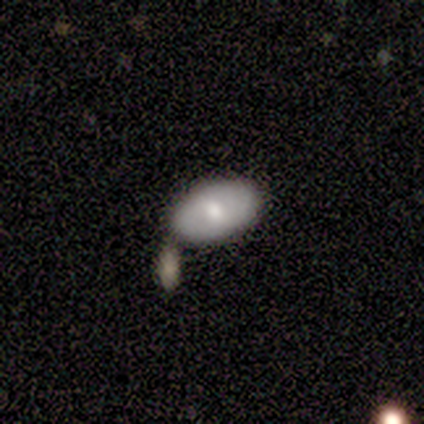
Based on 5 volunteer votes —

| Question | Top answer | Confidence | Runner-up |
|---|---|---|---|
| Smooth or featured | smooth | 40% | tied: featured or disk (40%) |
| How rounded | in between | 100% | — |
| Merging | minor disturbance | 50% | none (25%) |